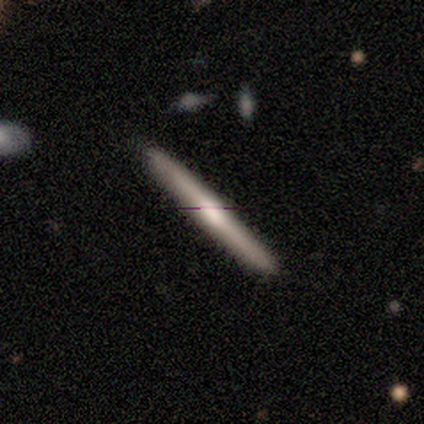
Smooth or featured?
  - smooth: 50% * (tied)
  - featured or disk: 50% * (tied)
  - star or artifact: 0%
How rounded?
  - cigar-shaped: 100% *
  - round: 0%
  - in between: 0%
Merging?
  - none: 100% *
  - minor disturbance: 0%
  - major disturbance: 0%
  - merger: 0%